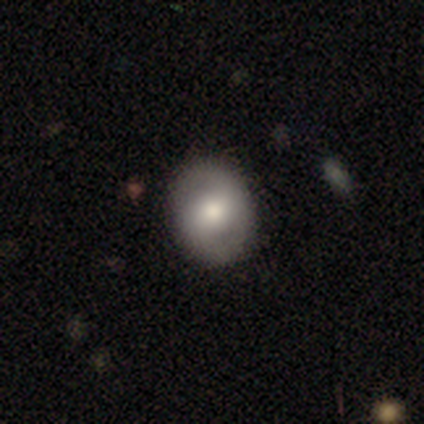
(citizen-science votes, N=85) This appears to be a smooth galaxy with no disk features (56%) that is in between round and cigar-shaped (52%). Merging: none (87%).